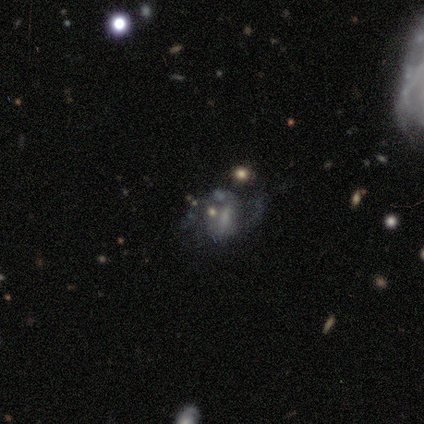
Smooth or featured?
  - featured or disk: 80% *
  - star or artifact: 20%
  - smooth: 0%
Edge-on disk?
  - no: 75% *
  - yes: 25%
Bar?
  - strong: 33% * (tied)
  - weak: 33% * (tied)
  - no: 33% * (tied)
Spiral arms?
  - yes: 67% *
  - no: 33%
Spiral winding?
  - medium: 50% * (tied)
  - loose: 50% * (tied)
  - tight: 0%
Spiral arm count?
  - 2: 100% *
  - 1: 0%
  - 3: 0%
  - 4: 0%
  - more than 4: 0%
  - can't tell: 0%
Bulge size?
  - moderate: 33% * (tied)
  - small: 33% * (tied)
  - none: 33% * (tied)
  - dominant: 0%
  - large: 0%
Merging?
  - none: 100% *
  - minor disturbance: 0%
  - major disturbance: 0%
  - merger: 0%